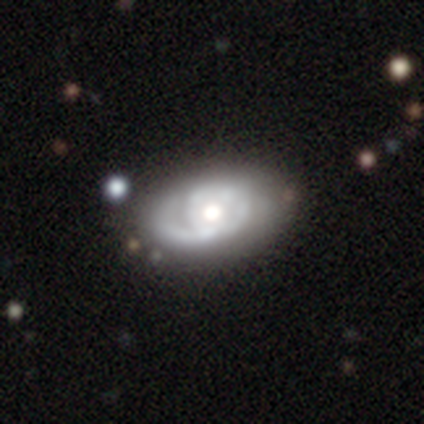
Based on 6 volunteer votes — Smooth or featured? 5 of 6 (83%) said featured or disk. Edge-on disk? 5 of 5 (100%) said no. Bar? 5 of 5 (100%) said no. Spiral arms? 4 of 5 (80%) said yes. Spiral winding? 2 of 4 (50%) said medium. Spiral arm count? 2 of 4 (50%, tied with 2) said 1. Bulge size? 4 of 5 (80%) said moderate. Merging? 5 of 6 (83%) said none.